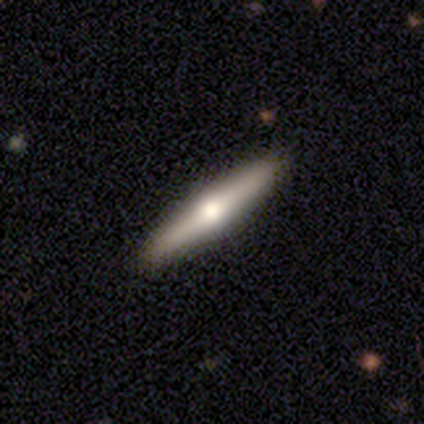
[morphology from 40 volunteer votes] Smooth or featured?
  - featured or disk: 60% *
  - smooth: 32%
  - star or artifact: 8%
Edge-on disk?
  - yes: 92% *
  - no: 8%
Edge-on bulge?
  - rounded: 91% *
  - none: 9%
  - boxy: 0%
Merging?
  - none: 89% *
  - minor disturbance: 11%
  - major disturbance: 0%
  - merger: 0%